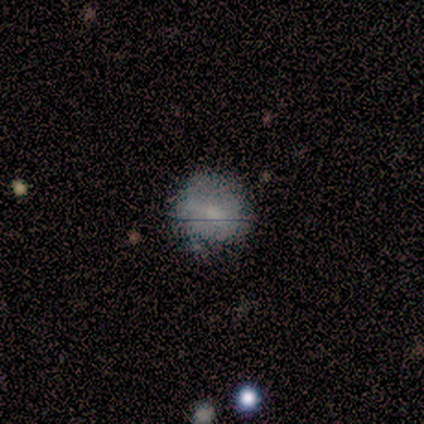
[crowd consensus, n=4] This is possibly a smooth galaxy (50%, tied with featured or disk). How rounded: clearly round (100%). Merging: likely none (75%).